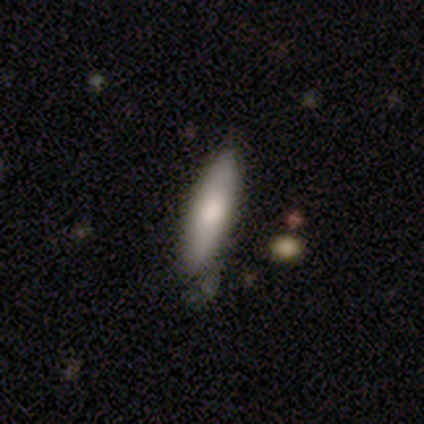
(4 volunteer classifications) smooth-or-featured: smooth: 100% | featured or disk: 0% | star or artifact: 0%
  how-rounded: cigar-shaped: 75% | in between: 25% | round: 0%
  merging: none: 100% | minor disturbance: 0% | major disturbance: 0% | merger: 0%